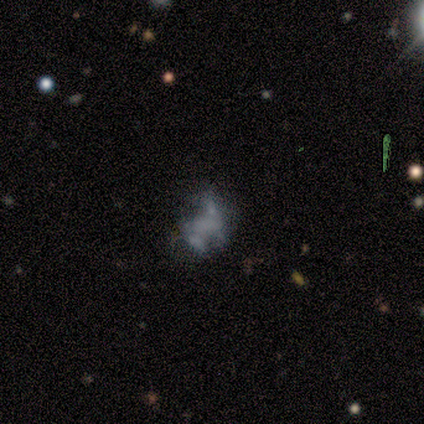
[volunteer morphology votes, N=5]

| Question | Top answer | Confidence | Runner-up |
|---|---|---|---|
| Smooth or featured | smooth | 60% | featured or disk (20%) |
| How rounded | in between | 100% | — |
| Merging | none | 50% | major disturbance (25%) |